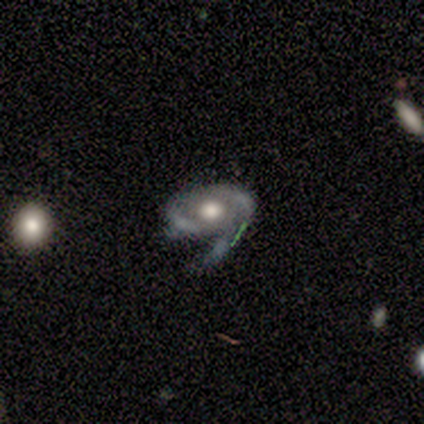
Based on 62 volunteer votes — A featured or disk galaxy (76%) with no bar (98%), 2 (45%) tight (41%, tied with medium) spiral arms (63%) and a moderate central bulge (50%).

Vote fractions:
- Smooth or featured? featured or disk: 76% / smooth: 16% / star or artifact: 8%
- Edge-on disk? no: 98% / yes: 2%
- Bar? no: 98% / weak: 2% / strong: 0%
- Spiral arms? yes: 63% / no: 37%
- Spiral winding? tight: 41% (tied) / medium: 41% (tied) / loose: 17%
- Spiral arm count? 2: 45% / 1: 21% / can't tell: 21% / 3: 14% / 4: 0% / more than 4: 0%
- Bulge size? moderate: 50% / large: 48% / dominant: 2% / small: 0% / none: 0%
- Merging? major disturbance: 40% / none: 26% / minor disturbance: 25% / merger: 9%